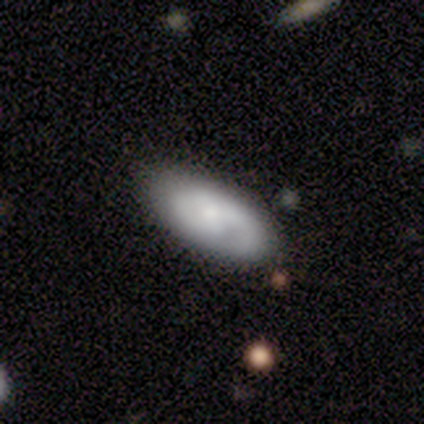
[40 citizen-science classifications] featured or disk 62%, smooth 38%, star or artifact 0%. Down the decision tree: edge-on disk — no (100%); bar — no (72%); spiral arms — yes (92%); spiral arm count — 2 (70%); spiral winding — medium (61%); bulge size — moderate (44%, tied with small); merging — none (75%).